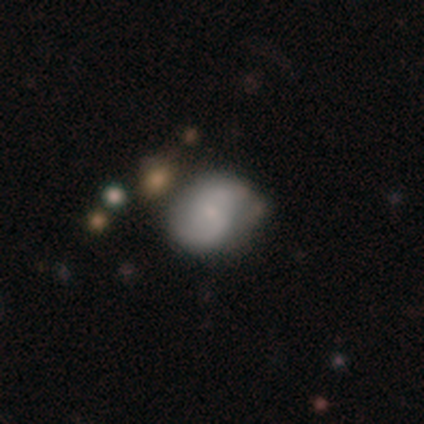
featured or disk 48%, smooth 47%, star or artifact 5%. Down the decision tree: edge-on disk — no (100%); bar — no (55%); spiral arms — yes (89%); spiral arm count — 2 (88%); spiral winding — medium (50%); bulge size — small (63%); merging — none (37%).